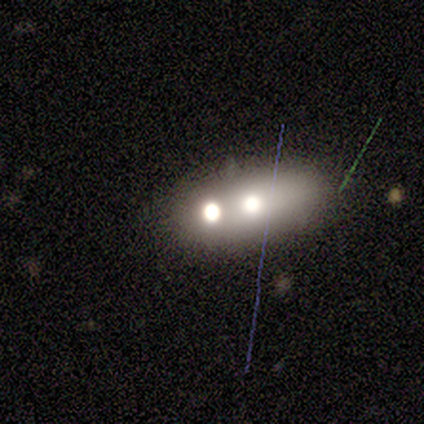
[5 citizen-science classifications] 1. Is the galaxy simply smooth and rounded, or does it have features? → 40% featured or disk (tied), 40% star or artifact (tied), 20% smooth.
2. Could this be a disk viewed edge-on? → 100% no, 0% yes.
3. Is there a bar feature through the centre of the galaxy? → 100% no, 0% strong, 0% weak.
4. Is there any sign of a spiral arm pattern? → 100% no, 0% yes.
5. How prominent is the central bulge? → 50% large (tied), 50% none (tied), 0% dominant, 0% moderate, 0% small.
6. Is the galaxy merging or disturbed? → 67% merger, 33% major disturbance, 0% none, 0% minor disturbance.